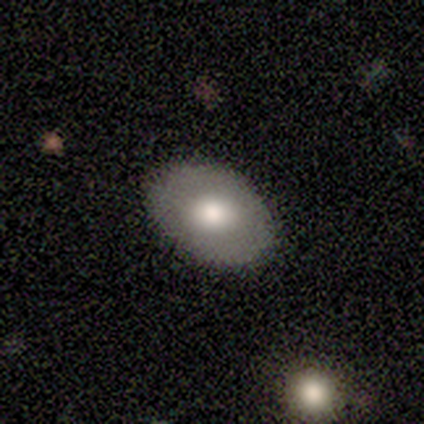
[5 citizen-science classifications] Q: Smooth or featured?
A: featured or disk (60%); runner-up: smooth (40%)
Q: Edge-on disk?
A: no (100%)
Q: Bar?
A: no (67%); runner-up: weak (33%)
Q: Spiral arms?
A: no (100%)
Q: Bulge size?
A: moderate (100%)
Q: Merging?
A: none (100%)